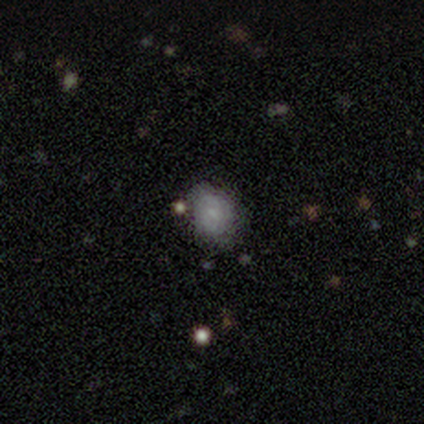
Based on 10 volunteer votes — smooth 60%, featured or disk 30%, star or artifact 10%. Down the decision tree: how rounded — in between (67%); merging — none (78%).